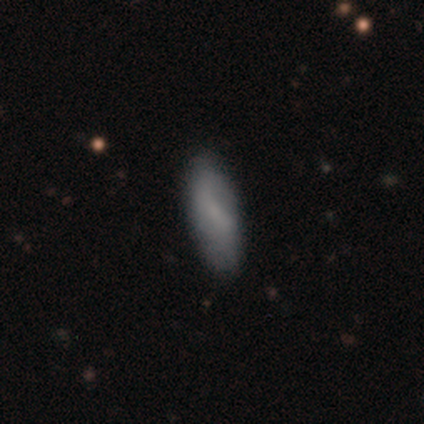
Morphology: type=smooth (78%); roundness=in between (71%); merging=none (45%).